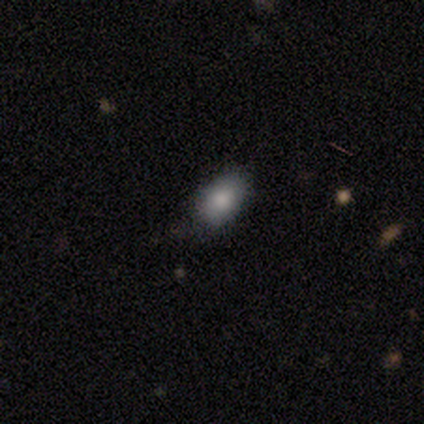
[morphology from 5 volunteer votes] A smooth galaxy with no disk features (60%) that is in between round and cigar-shaped (67%).

Vote fractions:
- Smooth or featured? smooth: 60% / featured or disk: 40% / star or artifact: 0%
- How rounded? in between: 67% / round: 33% / cigar-shaped: 0%
- Merging? none: 60% / minor disturbance: 40% / major disturbance: 0% / merger: 0%